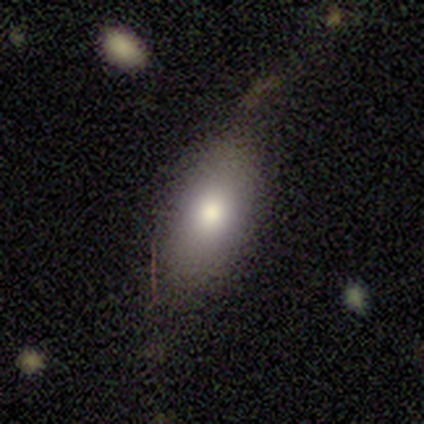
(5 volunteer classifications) Morphology: type=smooth (100%); roundness=in between (100%); merging=none (80%).